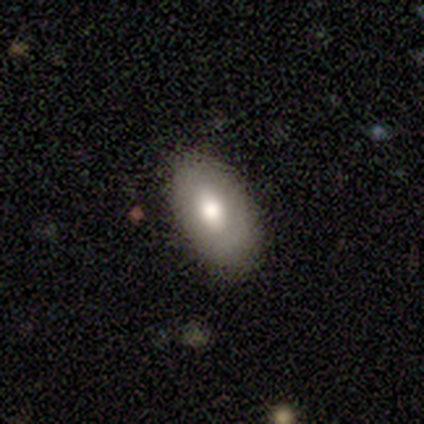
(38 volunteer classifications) A smooth galaxy with no disk features (74%) that is in between round and cigar-shaped (93%).

Vote fractions:
- Smooth or featured? smooth: 74% / featured or disk: 18% / star or artifact: 8%
- How rounded? in between: 93% / round: 4% / cigar-shaped: 4%
- Merging? none: 86% / minor disturbance: 14% / major disturbance: 0% / merger: 0%